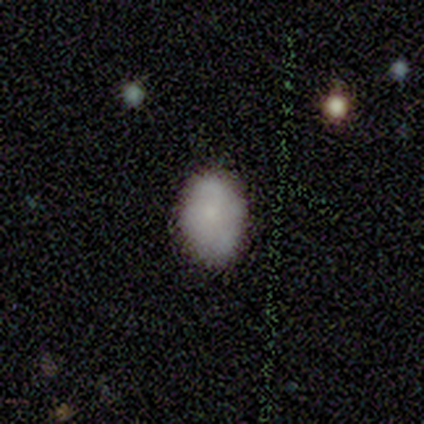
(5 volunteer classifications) smooth_or_featured: smooth (p=1.00)
how_rounded: in between (p=0.80) [alt: round p=0.20]
merging: none (p=1.00)